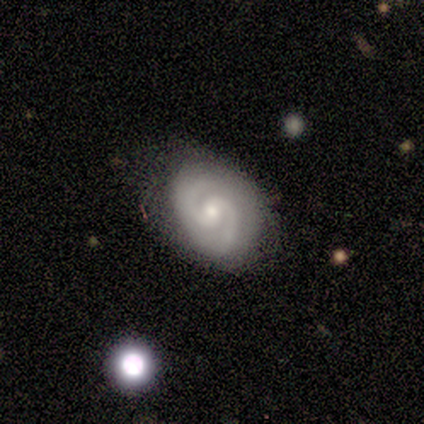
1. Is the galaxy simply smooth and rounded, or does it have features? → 100% featured or disk, 0% smooth, 0% star or artifact.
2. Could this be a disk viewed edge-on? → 100% no, 0% yes.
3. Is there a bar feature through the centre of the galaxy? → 67% weak, 33% no, 0% strong.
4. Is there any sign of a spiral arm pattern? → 100% yes, 0% no.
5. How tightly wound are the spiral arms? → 50% medium, 33% tight, 17% loose.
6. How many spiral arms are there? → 100% 2, 0% 1, 0% 3, 0% 4, 0% more than 4, 0% can't tell.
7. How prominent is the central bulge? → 50% moderate (tied), 50% small (tied), 0% dominant, 0% large, 0% none.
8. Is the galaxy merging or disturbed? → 100% none, 0% minor disturbance, 0% major disturbance, 0% merger.